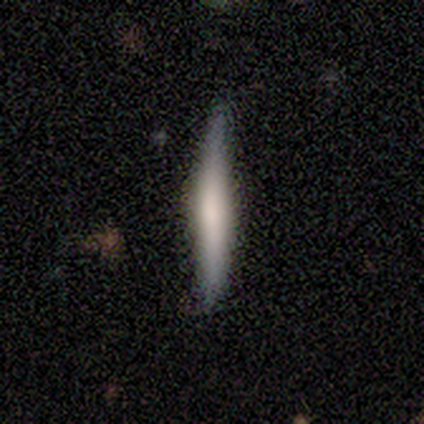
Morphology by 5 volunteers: smooth_or_featured: smooth (p=1.00)
how_rounded: cigar-shaped (p=1.00)
merging: none (p=1.00)